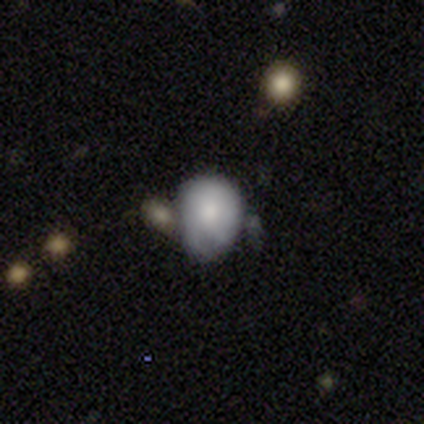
Volunteers were most divided on "how rounded": round: 57%, in between: 43%, cigar-shaped: 0%. More confident: smooth or featured — smooth (77%); merging — minor disturbance (53%).